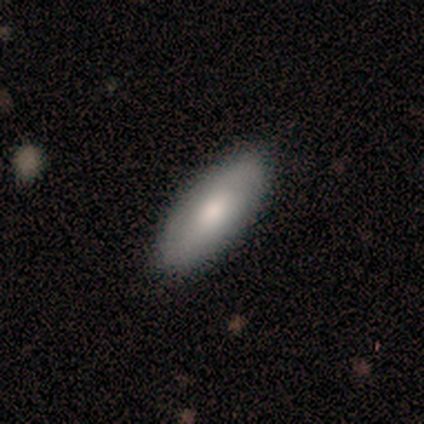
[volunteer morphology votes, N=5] Q: Smooth or featured?
A: smooth (100%)
Q: How rounded?
A: in between (100%)
Q: Merging?
A: none (60%); runner-up: major disturbance (40%)